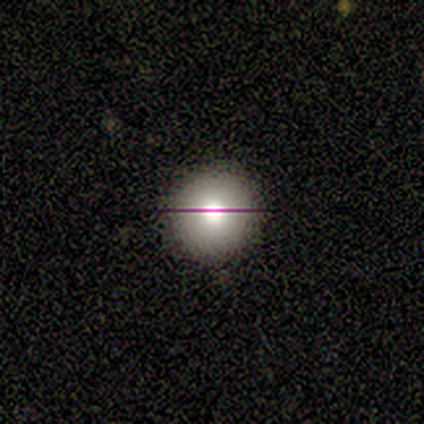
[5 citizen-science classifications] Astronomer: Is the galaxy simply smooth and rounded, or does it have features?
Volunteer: featured or disk — 60% (runner-up: smooth, 40%).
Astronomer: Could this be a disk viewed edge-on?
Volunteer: yes — 67%.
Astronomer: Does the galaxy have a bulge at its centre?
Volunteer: rounded — 100%.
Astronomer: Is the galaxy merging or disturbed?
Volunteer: none — 100%.